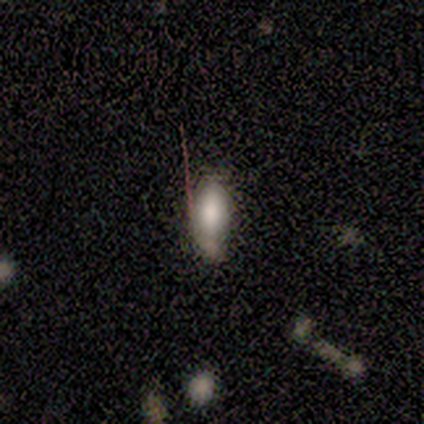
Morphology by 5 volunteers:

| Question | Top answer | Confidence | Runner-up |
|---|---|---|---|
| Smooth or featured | smooth | 80% | featured or disk (20%) |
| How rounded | in between | 100% | — |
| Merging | minor disturbance | 60% | none (40%) |